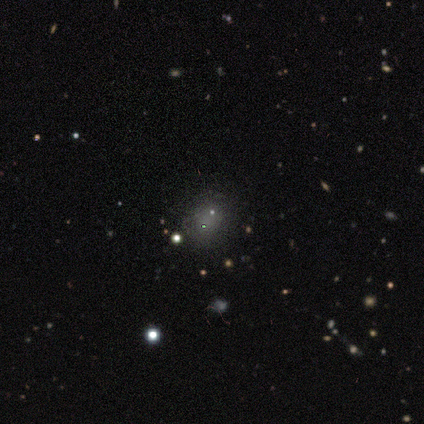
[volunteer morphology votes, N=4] A smooth galaxy with no disk features (50%, tied with star or artifact) that is round (50%, tied with in between). Merging: none (50%, tied with minor disturbance).